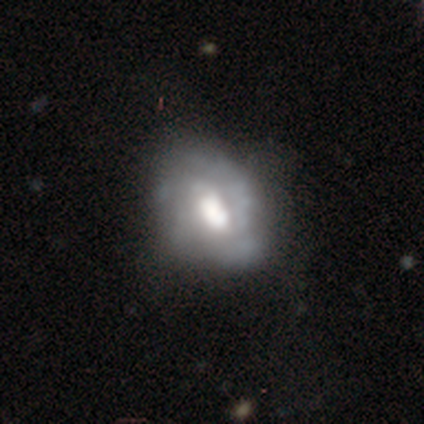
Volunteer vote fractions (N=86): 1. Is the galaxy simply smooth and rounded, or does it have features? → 76% featured or disk, 23% smooth, 1% star or artifact.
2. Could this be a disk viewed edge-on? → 94% no, 6% yes.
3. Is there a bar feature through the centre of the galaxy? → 46% weak (tied), 46% no (tied), 8% strong.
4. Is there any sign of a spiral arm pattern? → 62% no, 38% yes.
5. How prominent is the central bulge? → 44% large, 38% moderate, 8% dominant, 5% small, 5% none.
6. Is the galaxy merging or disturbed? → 47% none, 32% minor disturbance, 15% major disturbance, 6% merger.